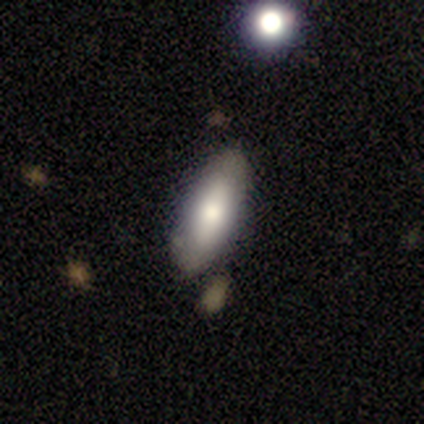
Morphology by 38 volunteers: Smooth or featured? smooth (82%)
How rounded? in between (77%)
Merging? none (76%)